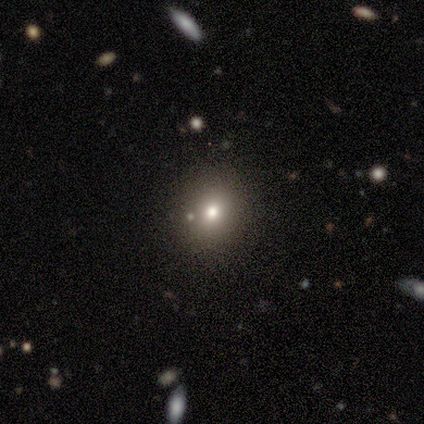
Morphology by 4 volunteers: Smooth or featured: smooth — 100%
How rounded: round — 75% (in between — 25%)
Merging: none — 75% (minor disturbance — 25%)